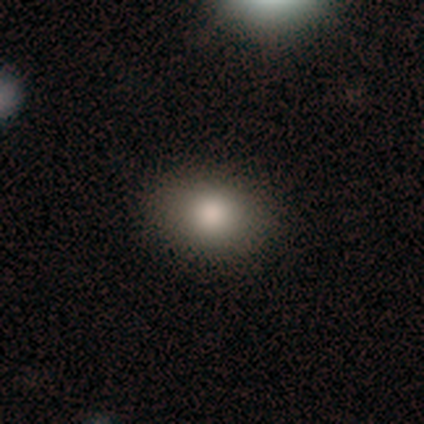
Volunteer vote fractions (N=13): smooth-or-featured: smooth: 62% | featured or disk: 38% | star or artifact: 0%
  how-rounded: in between: 88% | round: 12% | cigar-shaped: 0%
  merging: none: 77% | minor disturbance: 23% | major disturbance: 0% | merger: 0%